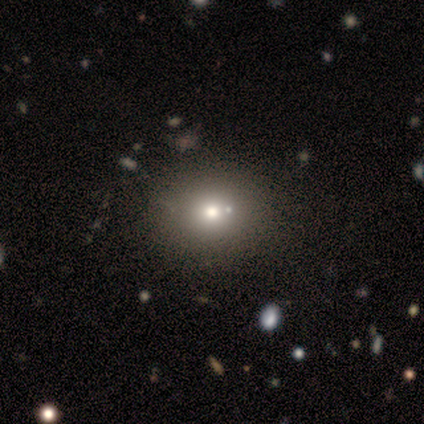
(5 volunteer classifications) Q: Smooth or featured?
A: smooth (60%); runner-up: featured or disk (20%)
Q: How rounded?
A: round (33%); tied with: in between (33%); cigar-shaped (33%)
Q: Merging?
A: none (75%); runner-up: merger (25%)